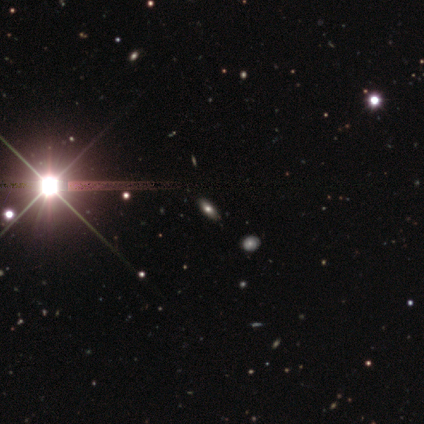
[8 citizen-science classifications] Morphology: type=smooth (38%, tied with star or artifact); roundness=cigar-shaped (67%); merging=none (100%).